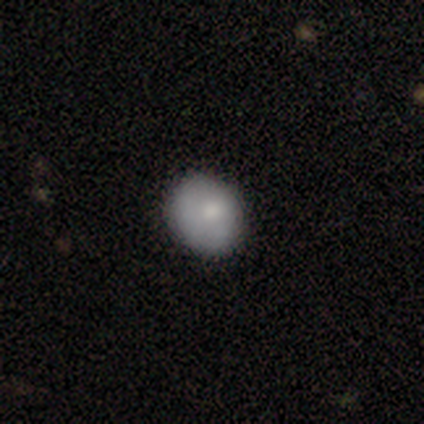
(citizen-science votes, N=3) This appears to be a smooth galaxy with no disk features (100%) that is round (67%). Merging: none (33%, tied with minor disturbance and major disturbance).